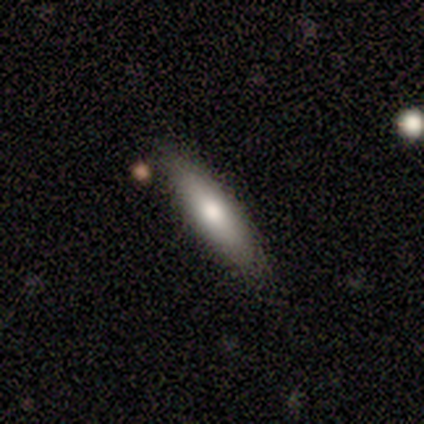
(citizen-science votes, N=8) Q: Smooth or featured?
A: smooth (50%); tied with: featured or disk (50%)
Q: How rounded?
A: in between (75%); runner-up: cigar-shaped (25%)
Q: Merging?
A: none (100%)